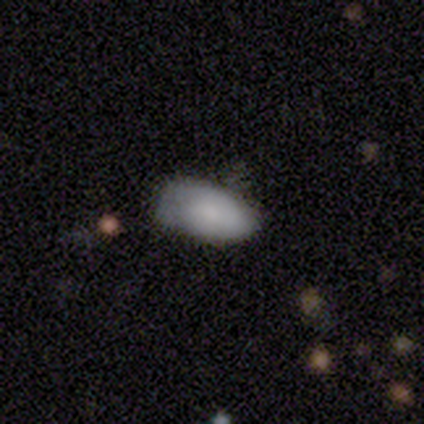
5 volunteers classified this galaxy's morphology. Smooth or featured? 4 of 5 (80%) said smooth. How rounded? 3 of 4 (75%) said in between. Merging? 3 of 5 (60%) said none.